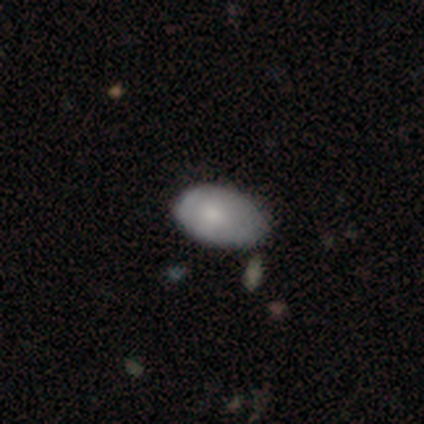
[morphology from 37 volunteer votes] Overall: smooth (76%). How rounded: in between (100%). Merging: minor disturbance (53%; none 39%).